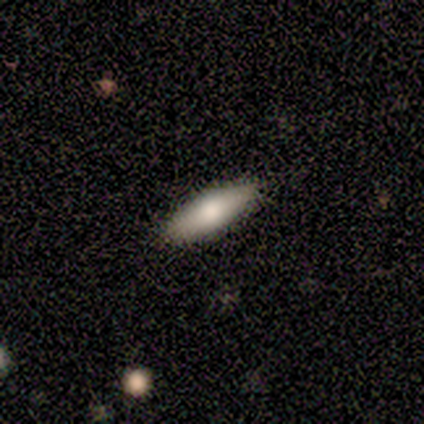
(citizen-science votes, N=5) Volunteers were most divided on "how rounded": cigar-shaped: 80%, in between: 20%, round: 0%. More confident: smooth or featured — smooth (100%); merging — none (100%).